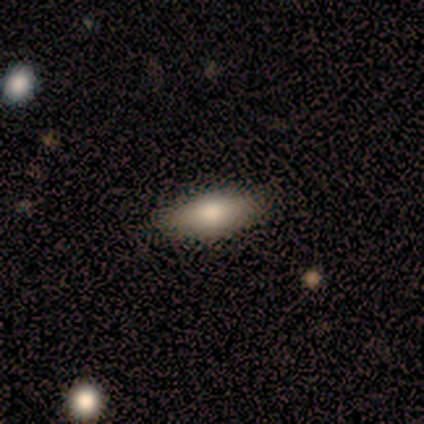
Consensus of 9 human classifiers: This appears to be a smooth galaxy with no disk features (100%) that is in between round and cigar-shaped (78%). Merging: none (100%).